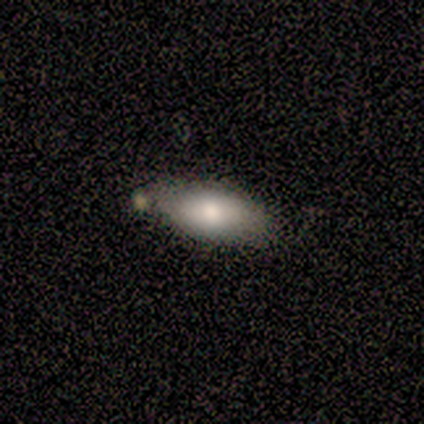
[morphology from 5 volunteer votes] Smooth or featured?
  - smooth: 80% *
  - featured or disk: 20%
  - star or artifact: 0%
How rounded?
  - in between: 75% *
  - cigar-shaped: 25%
  - round: 0%
Merging?
  - none: 40% * (tied)
  - minor disturbance: 40% * (tied)
  - major disturbance: 20%
  - merger: 0%